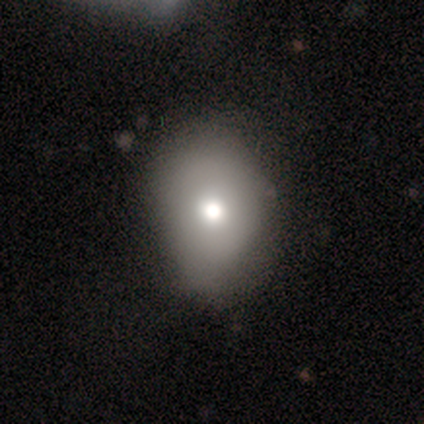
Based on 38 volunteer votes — Smooth or featured? smooth (87%)
How rounded? in between (58%)
Merging? none (35%)